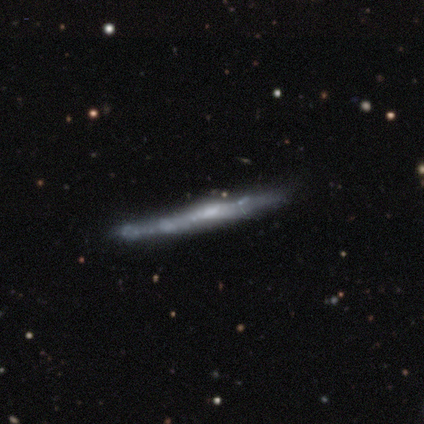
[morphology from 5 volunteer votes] A featured or disk galaxy (80%) viewed edge-on (100%) with no central bulge (50%, tied with rounded).

Vote fractions:
- Smooth or featured? featured or disk: 80% / smooth: 20% / star or artifact: 0%
- Edge-on disk? yes: 100% / no: 0%
- Edge-on bulge? none: 50% (tied) / rounded: 50% (tied) / boxy: 0%
- Merging? none: 100% / minor disturbance: 0% / major disturbance: 0% / merger: 0%